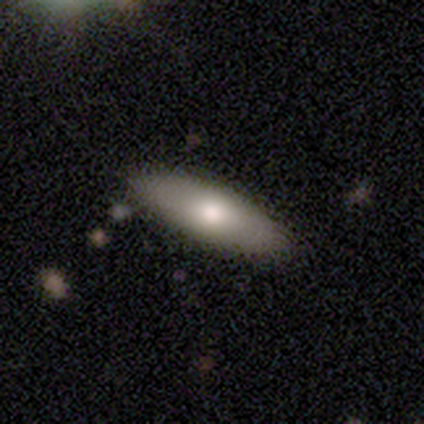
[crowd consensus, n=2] smooth 100%, featured or disk 0%, star or artifact 0%. Down the decision tree: how rounded — in between (50%, tied with cigar-shaped); merging — none (50%, tied with minor disturbance).